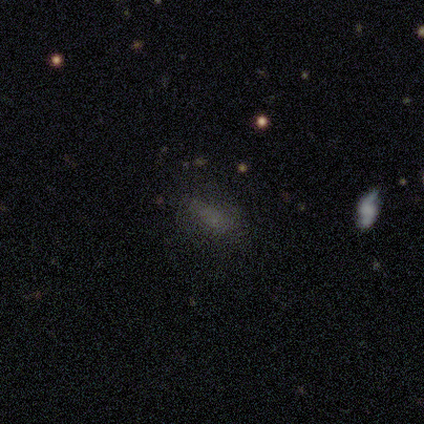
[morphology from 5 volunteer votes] Volunteers were most divided on "merging" (2-way tie): none: 40%, minor disturbance: 40%, major disturbance: 20%, merger: 0%. More confident: how rounded — in between (100%); smooth or featured — smooth (80%).